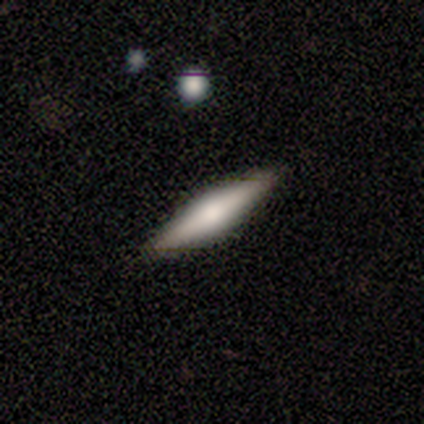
Smooth or featured?
  - smooth: 50% *
  - featured or disk: 42%
  - star or artifact: 8%
How rounded?
  - cigar-shaped: 67% *
  - in between: 33%
  - round: 0%
Merging?
  - none: 91% *
  - minor disturbance: 9%
  - major disturbance: 0%
  - merger: 0%